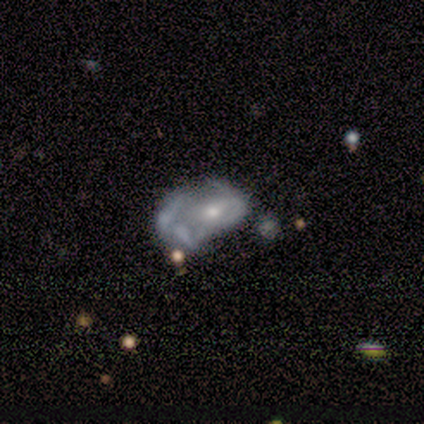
Smooth or featured: featured or disk — 67% (star or artifact — 33%)
Edge-on disk: yes — 50% (tied with no — 50%)
Edge-on bulge: rounded — 100%
Merging: none — 50% (tied with major disturbance — 50%)